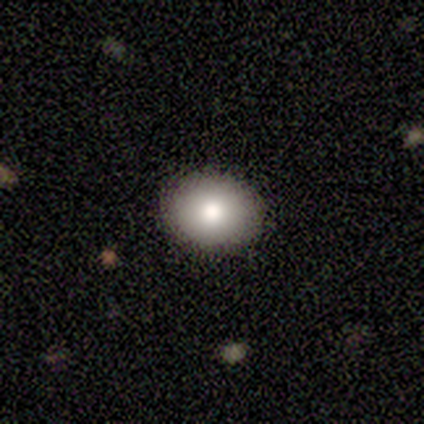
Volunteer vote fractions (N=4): Volunteers were most divided on "how rounded": round: 75%, in between: 25%, cigar-shaped: 0%. More confident: smooth or featured — smooth (100%); merging — none (100%).